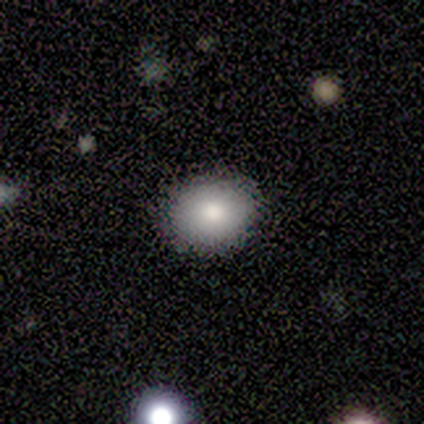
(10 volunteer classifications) This is clearly a smooth galaxy (100%). How rounded: possibly round (50%, tied with in between). Merging: clearly none (100%).